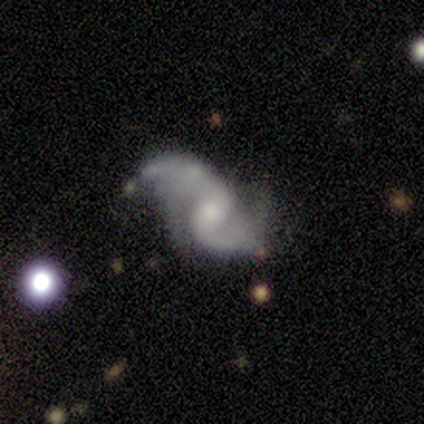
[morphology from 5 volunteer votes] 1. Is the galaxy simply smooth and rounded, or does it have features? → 100% featured or disk, 0% smooth, 0% star or artifact.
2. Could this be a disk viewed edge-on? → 100% no, 0% yes.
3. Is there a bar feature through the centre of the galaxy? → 60% weak, 40% strong, 0% no.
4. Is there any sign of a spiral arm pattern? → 80% yes, 20% no.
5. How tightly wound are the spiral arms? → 75% loose, 25% medium, 0% tight.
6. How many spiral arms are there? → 100% 2, 0% 1, 0% 3, 0% 4, 0% more than 4, 0% can't tell.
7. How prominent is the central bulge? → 60% moderate, 40% small, 0% dominant, 0% large, 0% none.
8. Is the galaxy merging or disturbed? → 40% none (tied), 40% minor disturbance (tied), 20% major disturbance, 0% merger.